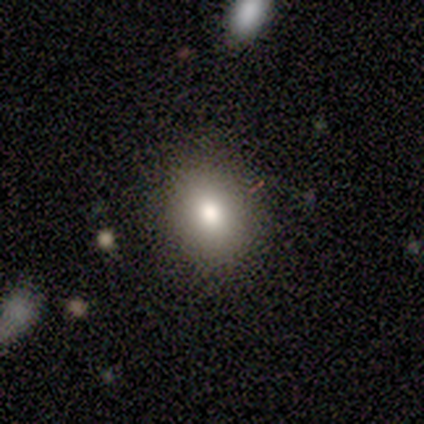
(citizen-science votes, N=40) smooth-or-featured: smooth: 80% | featured or disk: 15% | star or artifact: 5%
  how-rounded: round: 59% | in between: 41% | cigar-shaped: 0%
  merging: none: 89% | minor disturbance: 8% | major disturbance: 3% | merger: 0%